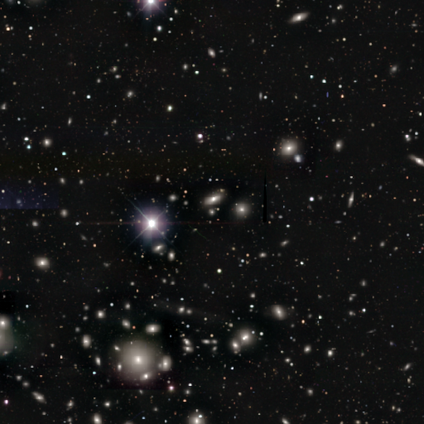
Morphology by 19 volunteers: This appears to be a star or artifact, not a galaxy (74%).